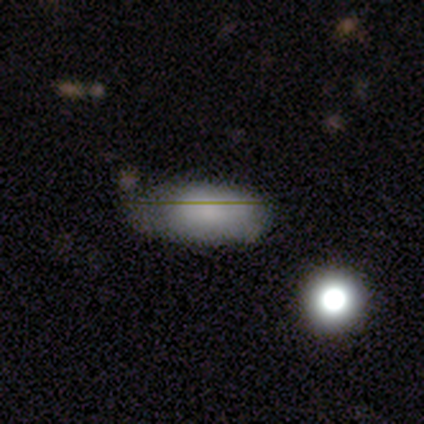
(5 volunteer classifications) Volunteers were most divided on "smooth or featured": smooth: 60%, featured or disk: 40%, star or artifact: 0%. More confident: how rounded — in between (100%); merging — minor disturbance (80%).